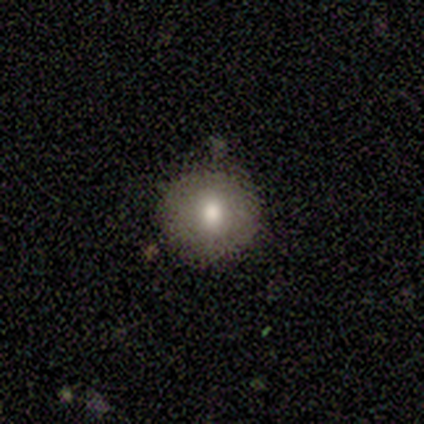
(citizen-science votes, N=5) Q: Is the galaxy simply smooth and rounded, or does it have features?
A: smooth — 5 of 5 (100%).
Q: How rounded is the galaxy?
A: round — 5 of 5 (100%).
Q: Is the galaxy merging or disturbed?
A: none — 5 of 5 (100%).